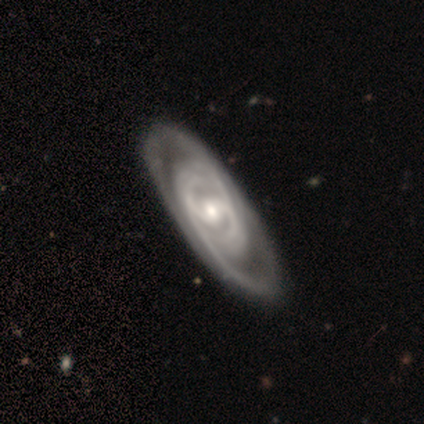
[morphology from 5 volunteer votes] This is clearly a featured or disk galaxy (80%). It is likely not viewed edge-on (75%). Bar: likely strong (67%). Spiral arm pattern: clearly yes (100%). Spiral arm count: marginally 2 (33%, tied with more than 4 and can't tell). Spiral winding: likely tight (67%). Central bulge: likely moderate (67%). Merging: clearly none (100%).